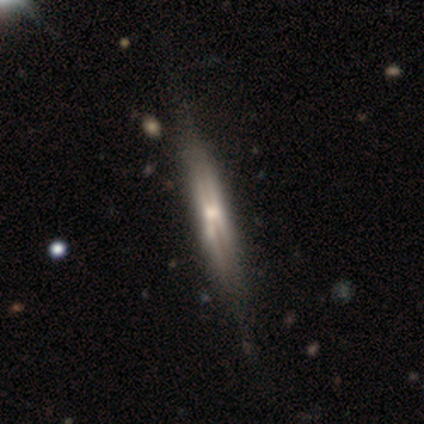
A featured or disk galaxy (82%) viewed edge-on (97%) with a rounded central bulge (53%).

Vote fractions:
- Smooth or featured? featured or disk: 82% / smooth: 18% / star or artifact: 0%
- Edge-on disk? yes: 97% / no: 3%
- Edge-on bulge? rounded: 53% / none: 25% / boxy: 22%
- Merging? none: 52% / minor disturbance: 8% / merger: 2% / major disturbance: 0%